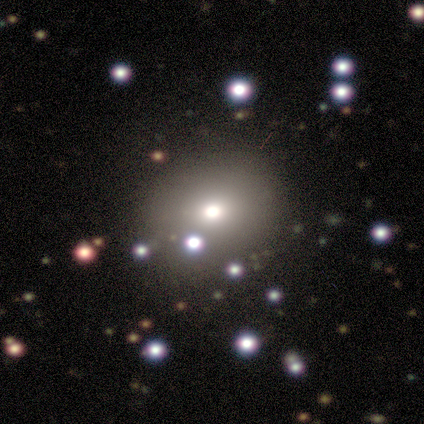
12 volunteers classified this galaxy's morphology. Smooth or featured: smooth — 67% (star or artifact — 25%)
How rounded: round — 88% (in between — 12%)
Merging: none — 100%